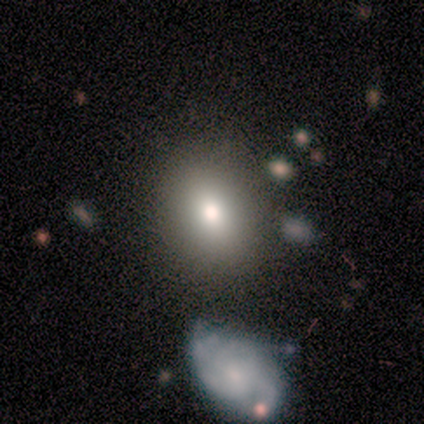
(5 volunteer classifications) Morphology: type=featured or disk (80%); edge-on=no (100%); bar=weak (50%, tied with no); spiral arms=no (75%); bulge=moderate (75%); merging=none (60%).